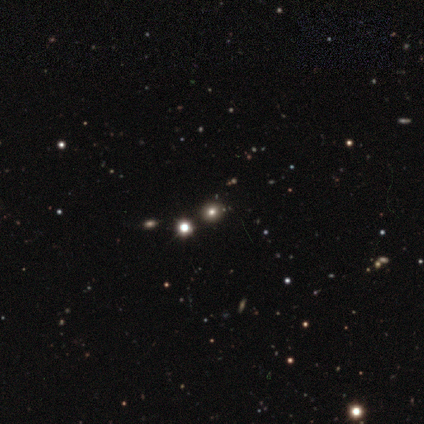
smooth-or-featured: star or artifact: 55% | smooth: 35% | featured or disk: 10%